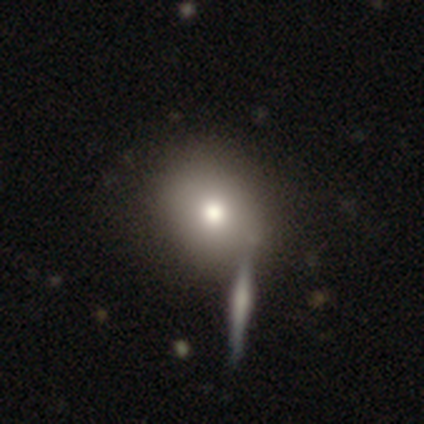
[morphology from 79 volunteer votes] Smooth or featured? 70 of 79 (89%) said smooth. How rounded? 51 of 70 (73%) said round. Merging? 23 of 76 (30%) said none.